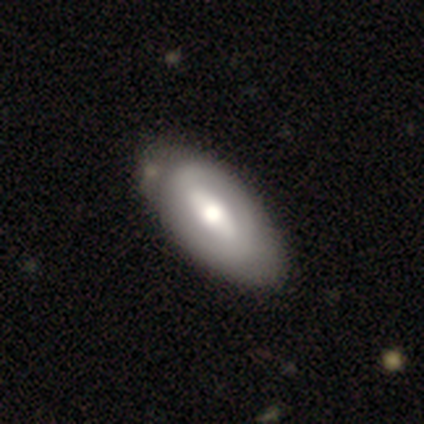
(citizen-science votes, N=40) Q: Smooth or featured?
A: smooth (50%); tied with: featured or disk (50%)
Q: How rounded?
A: in between (100%)
Q: Merging?
A: none (38%); runner-up: minor disturbance (22%)